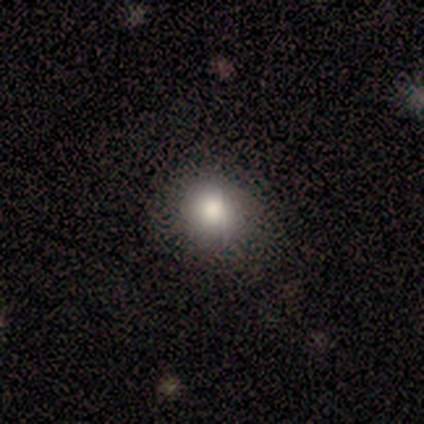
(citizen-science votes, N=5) This appears to be a smooth galaxy with no disk features (80%) that is round (50%, tied with in between). Merging: none (75%).